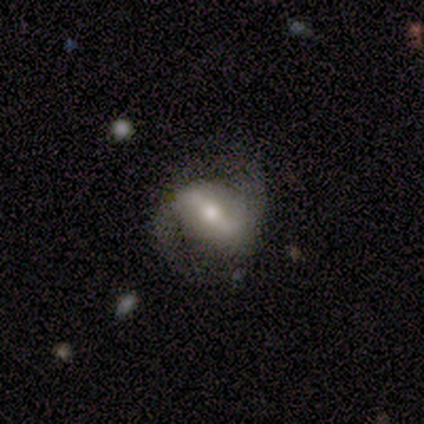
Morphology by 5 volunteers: Smooth or featured: featured or disk — 80% (smooth — 20%)
Edge-on disk: no — 100%
Bar: strong — 100%
Spiral arms: yes — 100%
Spiral winding: medium — 75% (tight — 25%)
Spiral arm count: 2 — 100%
Bulge size: moderate — 50% (large — 25%)
Merging: minor disturbance — 60% (none — 40%)